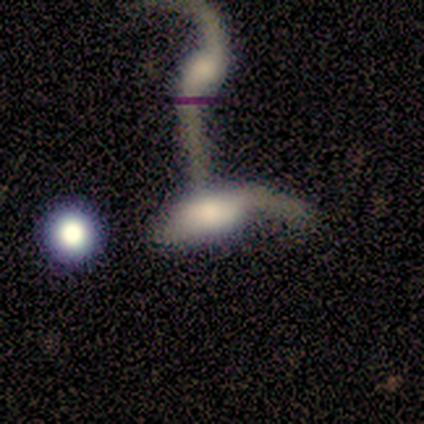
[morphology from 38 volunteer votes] This is possibly a featured or disk galaxy (53%). It is clearly not viewed edge-on (85%). Bar: likely no (65%). Spiral arm pattern: likely yes (76%). Spiral arm count: likely 1 (77%). Spiral winding: clearly loose (92%). Central bulge: possibly moderate (47%). Merging: possibly merger (59%).